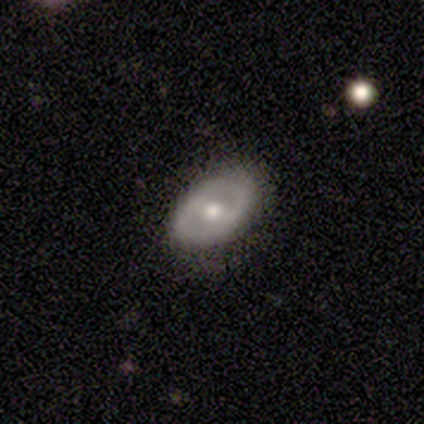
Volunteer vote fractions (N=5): This appears to be a featured or disk galaxy (80%) viewed edge-on (100%) with a rounded central bulge (100%). Merging: none (100%).